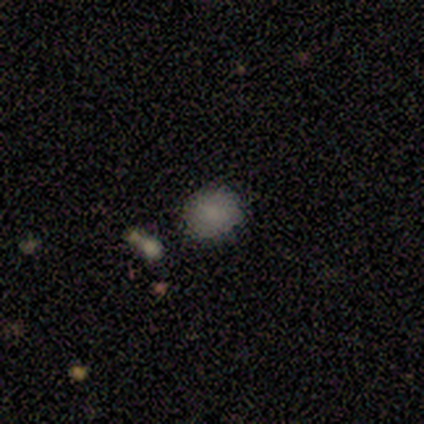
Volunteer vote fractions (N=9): Smooth or featured? 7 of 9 (78%) said smooth. How rounded? 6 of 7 (86%) said round. Merging? 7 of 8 (88%) said none.